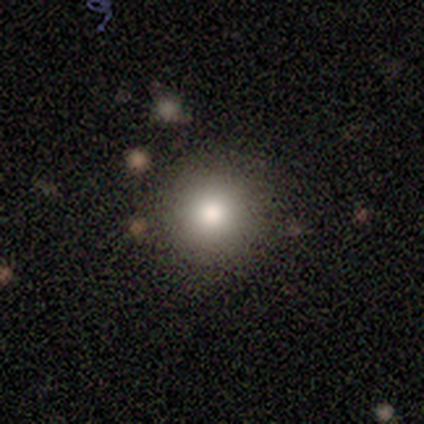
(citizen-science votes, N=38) smooth-or-featured: smooth: 79% | featured or disk: 16% | star or artifact: 5%
  how-rounded: round: 93% | in between: 7% | cigar-shaped: 0%
  merging: none: 92% | minor disturbance: 3% | major disturbance: 3% | merger: 3%